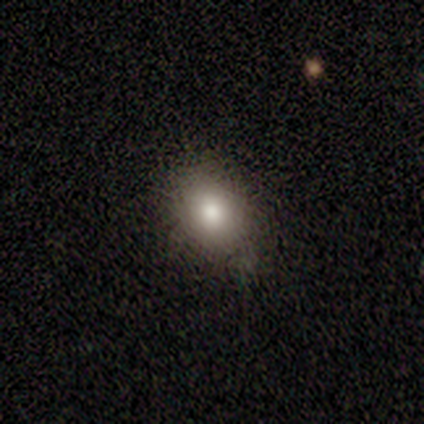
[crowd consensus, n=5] A smooth galaxy with no disk features (80%) that is in between round and cigar-shaped (75%). Merging: none (80%).